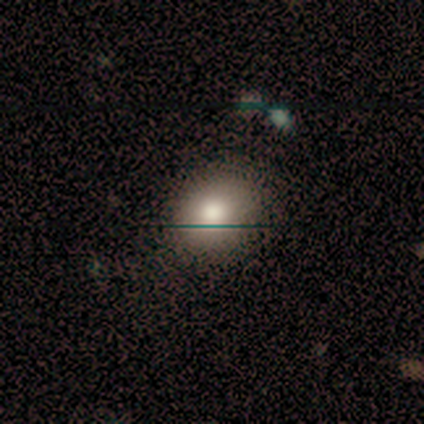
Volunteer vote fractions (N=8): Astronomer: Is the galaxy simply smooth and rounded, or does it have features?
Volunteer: smooth — 88%.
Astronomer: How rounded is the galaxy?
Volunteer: in between — 57% (runner-up: round, 43%).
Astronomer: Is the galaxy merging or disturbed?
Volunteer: none — 75%.